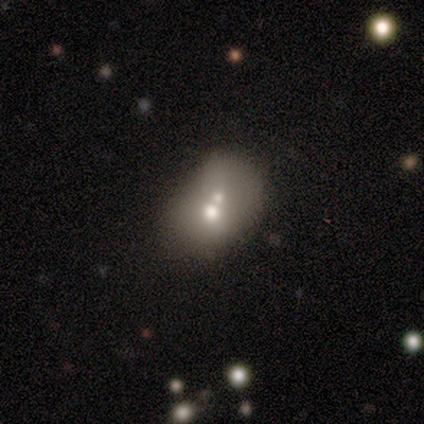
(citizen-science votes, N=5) A smooth galaxy with no disk features (60%) that is round (100%). Merging: merger (75%).